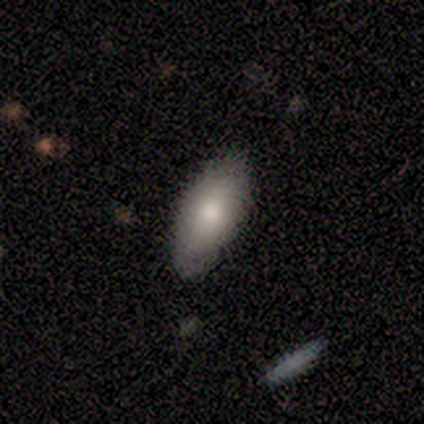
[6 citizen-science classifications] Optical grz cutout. It shows a smooth galaxy with no disk features (67%) that is in between round and cigar-shaped (100%). Merging: minor disturbance (60%).